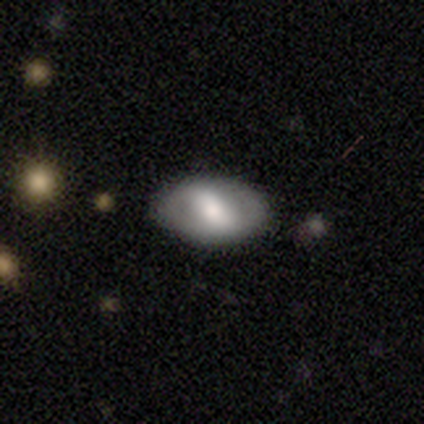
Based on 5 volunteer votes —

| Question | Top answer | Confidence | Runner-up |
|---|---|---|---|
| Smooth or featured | smooth | 60% | featured or disk (40%) |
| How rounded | in between | 100% | — |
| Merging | none | 100% | — |